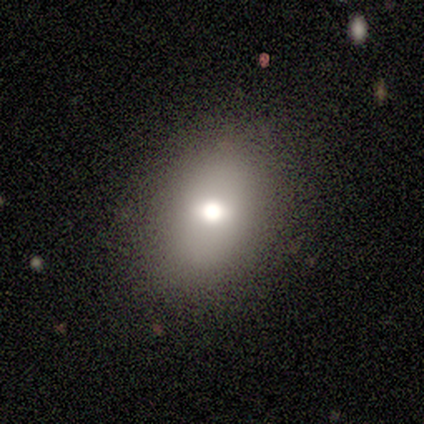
Smooth or featured? 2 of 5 (40%, tied with featured or disk) said smooth. How rounded? 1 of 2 (50%, tied with in between) said round. Merging? 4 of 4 (100%) said none.